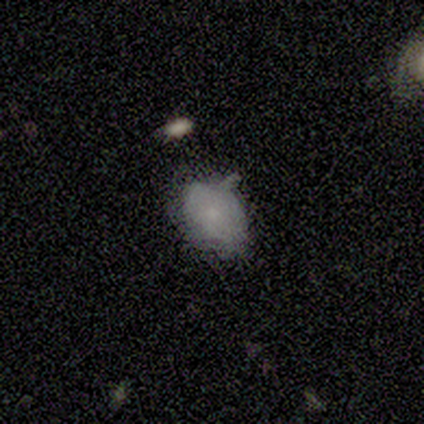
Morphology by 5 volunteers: This is clearly a smooth galaxy (80%). How rounded: clearly in between (100%). Merging: likely none (60%).